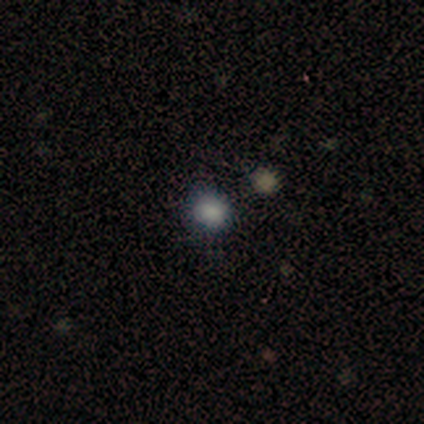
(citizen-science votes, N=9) A smooth galaxy with no disk features (56%) that is round (80%).

Vote fractions:
- Smooth or featured? smooth: 56% / featured or disk: 22% / star or artifact: 22%
- How rounded? round: 80% / in between: 20% / cigar-shaped: 0%
- Merging? none: 71% / major disturbance: 14% / merger: 14% / minor disturbance: 0%